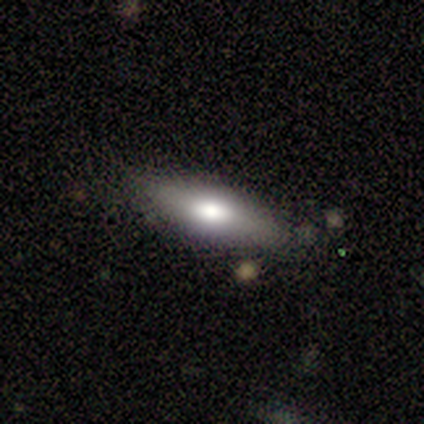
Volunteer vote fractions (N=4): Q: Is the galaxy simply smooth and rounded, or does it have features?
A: smooth — 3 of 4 (75%).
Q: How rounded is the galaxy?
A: cigar-shaped — 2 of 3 (67%).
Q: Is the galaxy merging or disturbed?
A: none — 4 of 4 (100%).